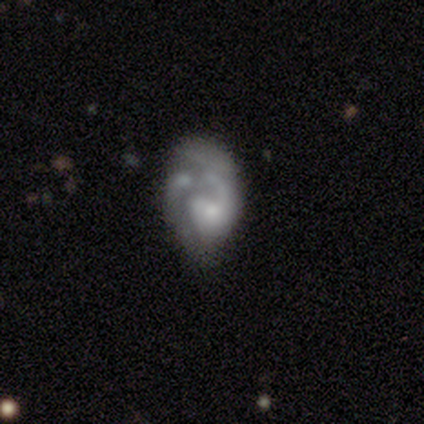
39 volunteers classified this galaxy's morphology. Overall: featured or disk (74%). Edge-on disk: no (97%). Bar: no (71%). Spiral arms: yes (68%; no 32%). Spiral arm count: 1 (58%; 2 32%). Spiral winding: medium (53%; loose 32%). Bulge size: small (43%; moderate 21%). Merging: none (29%, tied with major disturbance).